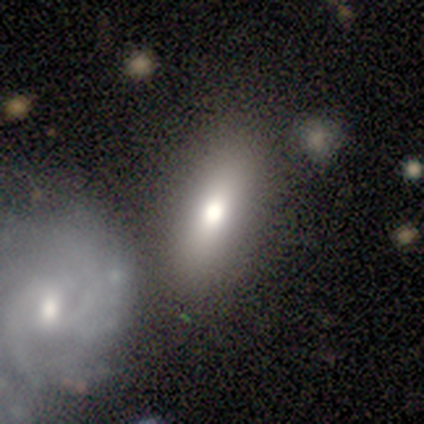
This appears to be a smooth galaxy with no disk features (62%) that is in between round and cigar-shaped (80%). Merging: none (83%).